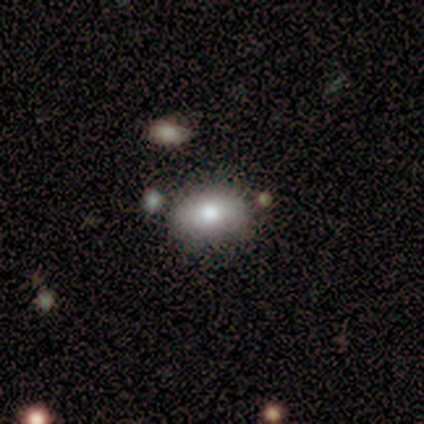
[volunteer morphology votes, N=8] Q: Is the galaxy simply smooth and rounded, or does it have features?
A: smooth — 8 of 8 (100%).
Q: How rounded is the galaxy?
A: in between — 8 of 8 (100%).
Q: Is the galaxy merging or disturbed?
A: none — 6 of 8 (75%).